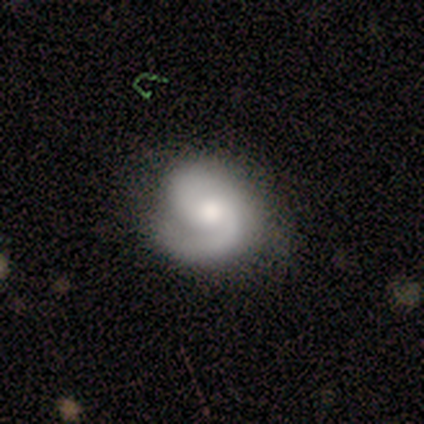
Smooth or featured?
  - featured or disk: 80% *
  - star or artifact: 20%
  - smooth: 0%
Edge-on disk?
  - no: 100% *
  - yes: 0%
Bar?
  - no: 75% *
  - weak: 25%
  - strong: 0%
Spiral arms?
  - yes: 75% *
  - no: 25%
Spiral winding?
  - medium: 67% *
  - tight: 33%
  - loose: 0%
Spiral arm count?
  - 2: 67% *
  - 3: 33%
  - 1: 0%
  - 4: 0%
  - more than 4: 0%
  - can't tell: 0%
Bulge size?
  - moderate: 100% *
  - dominant: 0%
  - large: 0%
  - small: 0%
  - none: 0%
Merging?
  - none: 100% *
  - minor disturbance: 0%
  - major disturbance: 0%
  - merger: 0%